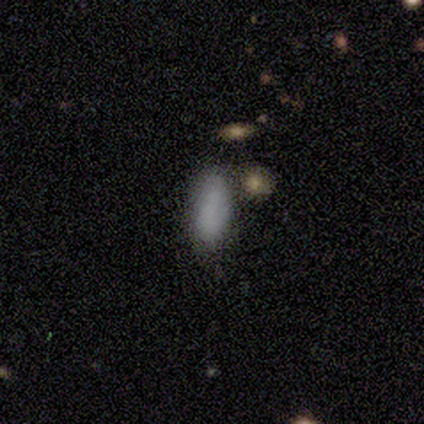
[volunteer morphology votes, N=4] type=smooth (100%); roundness=in between (100%); merging=minor disturbance (75%).